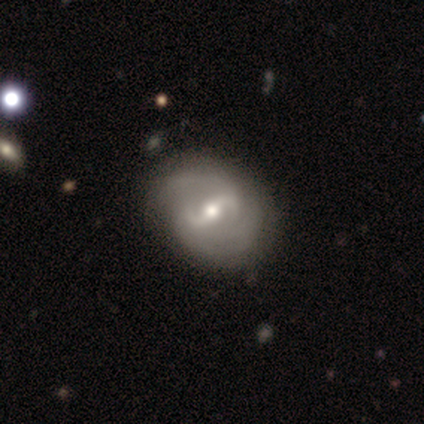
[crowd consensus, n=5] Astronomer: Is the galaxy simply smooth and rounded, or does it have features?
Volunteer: featured or disk — 80%.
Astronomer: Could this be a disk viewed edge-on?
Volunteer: no — 100%.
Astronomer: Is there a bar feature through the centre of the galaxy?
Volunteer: weak — 50%.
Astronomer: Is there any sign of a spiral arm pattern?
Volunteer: yes — 100%.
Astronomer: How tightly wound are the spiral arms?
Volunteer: medium — 75%.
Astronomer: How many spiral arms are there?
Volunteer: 2 — 50%.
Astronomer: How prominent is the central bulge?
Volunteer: moderate — 100%.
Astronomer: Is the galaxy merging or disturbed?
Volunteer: none — 75%.